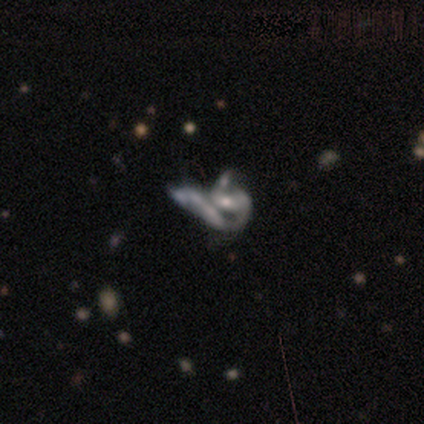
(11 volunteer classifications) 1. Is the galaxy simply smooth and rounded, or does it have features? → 91% featured or disk, 9% star or artifact, 0% smooth.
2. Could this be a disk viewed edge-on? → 100% no, 0% yes.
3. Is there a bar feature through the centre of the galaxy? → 80% no, 10% strong, 10% weak.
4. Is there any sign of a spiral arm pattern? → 70% yes, 30% no.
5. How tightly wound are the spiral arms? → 57% medium, 43% loose, 0% tight.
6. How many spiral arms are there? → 57% 2, 29% can't tell, 14% 1, 0% 3, 0% 4, 0% more than 4.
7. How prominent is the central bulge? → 60% moderate, 40% small, 0% dominant, 0% large, 0% none.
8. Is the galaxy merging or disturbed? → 50% merger, 30% none, 10% minor disturbance, 10% major disturbance.